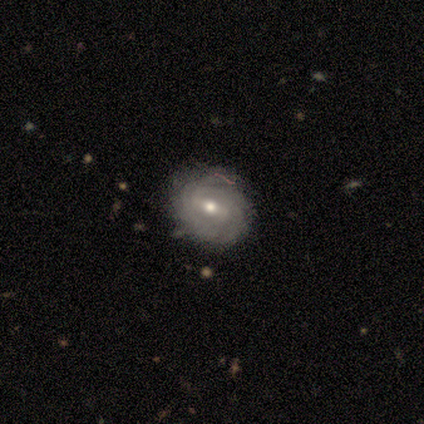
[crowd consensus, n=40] Overall: featured or disk (88%). Edge-on disk: no (97%). Bar: weak (56%; strong 26%). Spiral arms: yes (91%). Spiral arm count: can't tell (39%; 2 29%). Spiral winding: tight (74%). Bulge size: moderate (71%). Merging: none (74%).